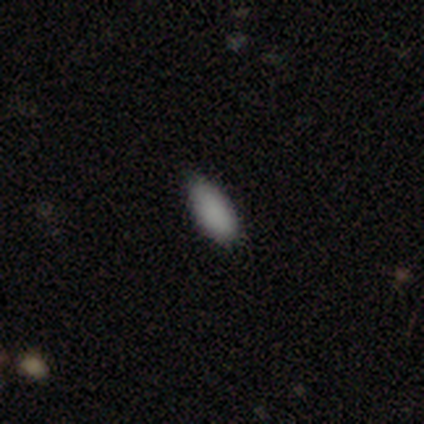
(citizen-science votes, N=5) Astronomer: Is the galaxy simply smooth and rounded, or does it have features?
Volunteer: smooth — 80%.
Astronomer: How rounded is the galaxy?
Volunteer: in between — 100%.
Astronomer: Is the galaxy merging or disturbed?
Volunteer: none — 100%.